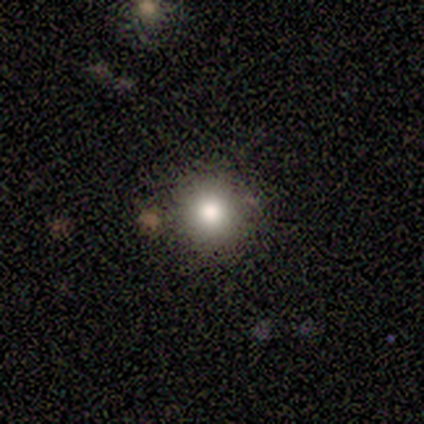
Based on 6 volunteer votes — A smooth galaxy with no disk features (100%) that is round (67%). Merging: none (67%).